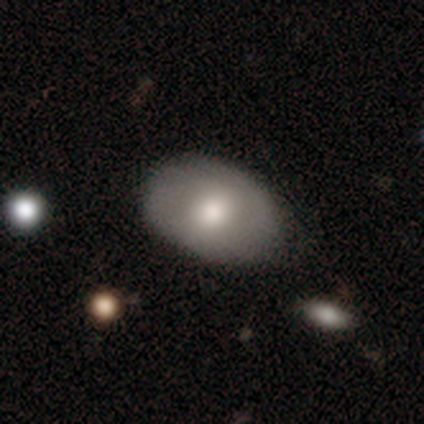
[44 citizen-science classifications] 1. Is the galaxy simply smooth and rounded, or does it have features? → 73% smooth, 27% featured or disk, 0% star or artifact.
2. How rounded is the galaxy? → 84% in between, 16% round, 0% cigar-shaped.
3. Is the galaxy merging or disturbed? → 82% none, 11% minor disturbance, 7% major disturbance, 0% merger.